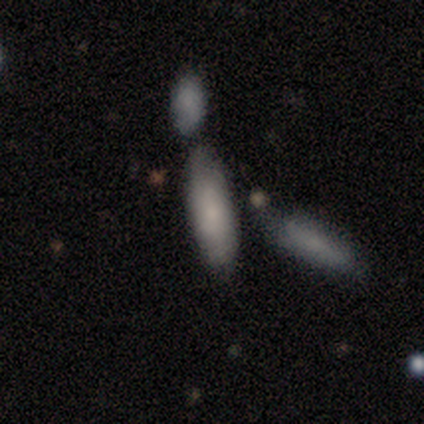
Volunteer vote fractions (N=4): Volunteers were most divided on "how rounded": cigar-shaped: 67%, in between: 33%, round: 0%. More confident: merging — none (100%); smooth or featured — smooth (75%).